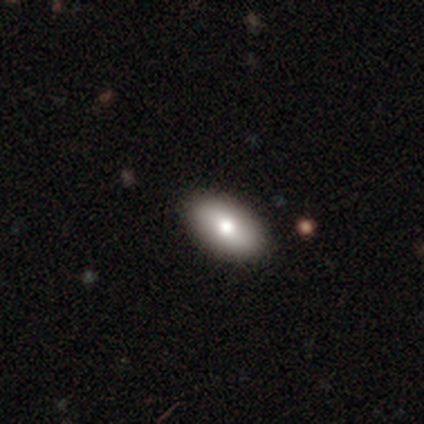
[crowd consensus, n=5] This is clearly a smooth galaxy (100%). How rounded: clearly in between (80%). Merging: clearly none (100%).